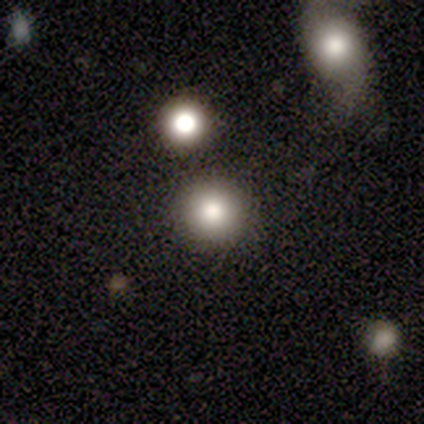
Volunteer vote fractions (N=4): smooth_or_featured: smooth (p=0.75) [alt: star or artifact p=0.25]
how_rounded: round (p=1.00)
merging: none (p=0.67) [alt: merger p=0.33]